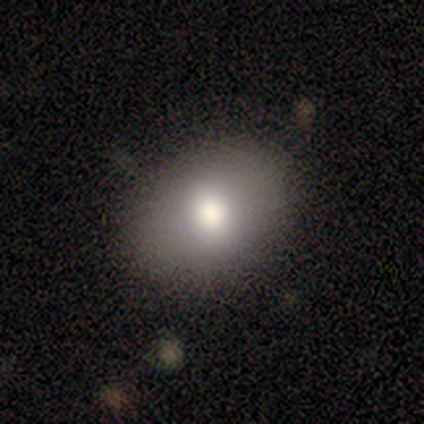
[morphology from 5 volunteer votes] Smooth or featured?
  - smooth: 80% *
  - featured or disk: 20%
  - star or artifact: 0%
How rounded?
  - in between: 75% *
  - round: 25%
  - cigar-shaped: 0%
Merging?
  - none: 80% *
  - major disturbance: 20%
  - minor disturbance: 0%
  - merger: 0%